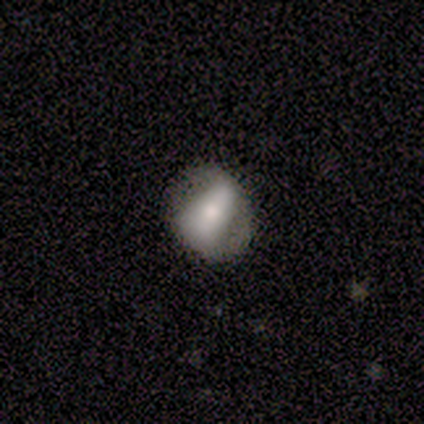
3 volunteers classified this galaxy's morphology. This is likely a featured or disk galaxy (67%). It is clearly not viewed edge-on (100%). Bar: clearly strong (100%). Spiral arm pattern: clearly yes (100%). Spiral arm count: clearly 2 (100%). Spiral winding: clearly tight (100%). Central bulge: clearly large (100%). Merging: marginally none (33%, tied with minor disturbance and major disturbance).